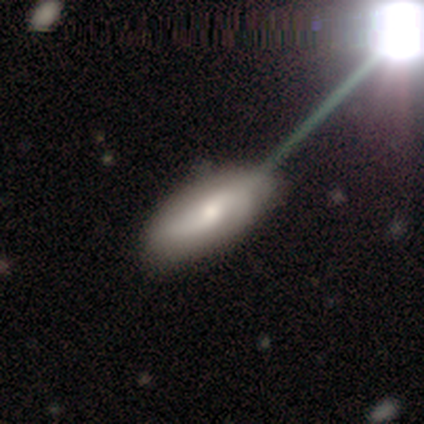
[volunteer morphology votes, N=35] smooth-or-featured: featured or disk: 57% | smooth: 31% | star or artifact: 11%
  disk-edge-on: no: 95% | yes: 5%
    bar: no: 63% | strong: 21% | weak: 16%
    has-spiral-arms: yes: 68% | no: 32%
      spiral-winding: loose: 54% | medium: 38% | tight: 8%
      spiral-arm-count: 2: 85% | 3: 8% | can't tell: 8% | 1: 0% | 4: 0% | more than 4: 0%
    bulge-size: moderate: 63% | small: 26% | dominant: 11% | large: 0% | none: 0%
  merging: none: 65% | minor disturbance: 23% | major disturbance: 10% | merger: 3%